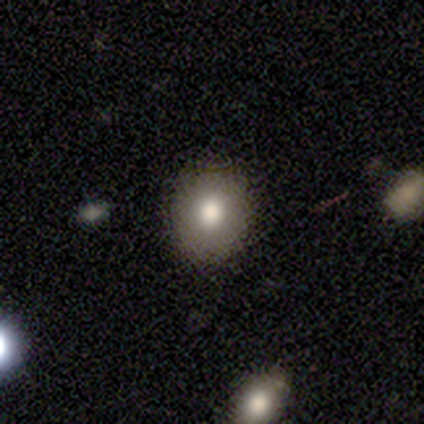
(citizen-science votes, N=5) Consensus on every question: smooth or featured — smooth (100%); how rounded — round (100%); merging — none (100%).